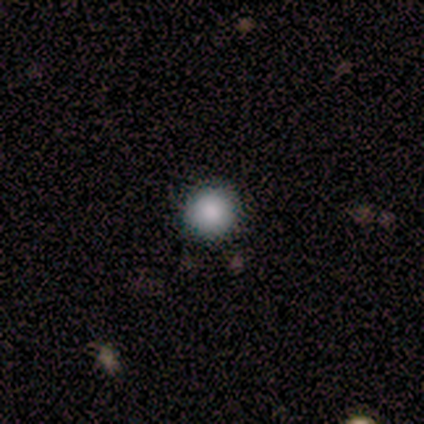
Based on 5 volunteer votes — smooth_or_featured: smooth (p=1.00)
how_rounded: round (p=0.80) [alt: in between p=0.20]
merging: none (p=1.00)